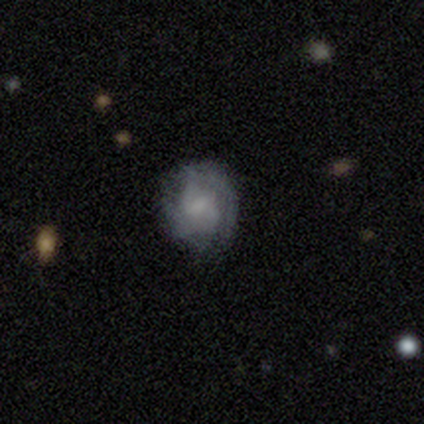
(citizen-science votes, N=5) smooth_or_featured: smooth (p=0.40) [tied with: star or artifact p=0.40]
how_rounded: round (p=1.00)
merging: none (p=0.67) [alt: major disturbance p=0.33]